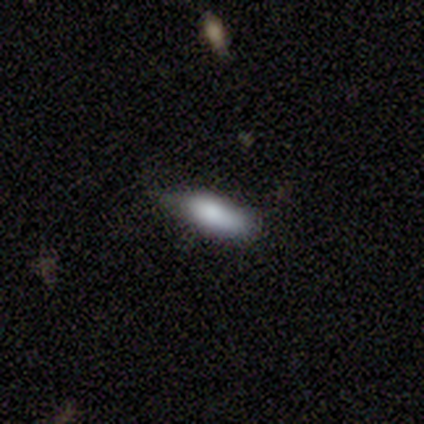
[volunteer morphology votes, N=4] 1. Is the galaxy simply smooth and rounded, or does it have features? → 100% smooth, 0% featured or disk, 0% star or artifact.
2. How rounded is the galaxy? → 50% in between (tied), 50% cigar-shaped (tied), 0% round.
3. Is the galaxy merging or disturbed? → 50% none (tied), 50% minor disturbance (tied), 0% major disturbance, 0% merger.